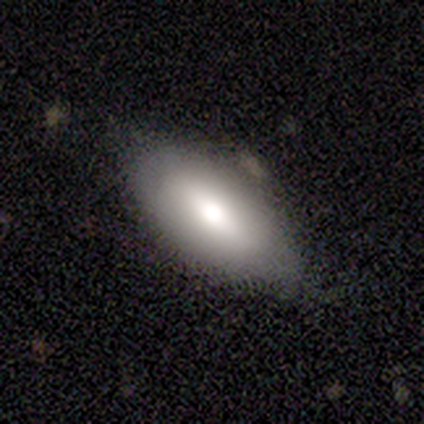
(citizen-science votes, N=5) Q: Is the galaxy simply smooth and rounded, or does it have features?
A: smooth — 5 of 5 (100%).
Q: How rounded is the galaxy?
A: in between — 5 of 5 (100%).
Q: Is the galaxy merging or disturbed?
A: none — 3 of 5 (60%).